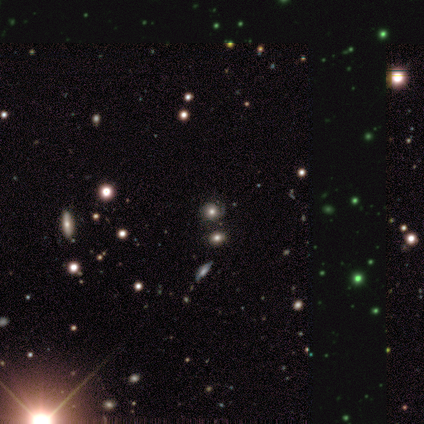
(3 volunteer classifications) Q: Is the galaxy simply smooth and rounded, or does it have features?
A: smooth — 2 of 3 (67%).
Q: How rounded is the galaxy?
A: round — 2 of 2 (100%).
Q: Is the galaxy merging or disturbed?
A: none — 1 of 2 (50%, tied with minor disturbance).